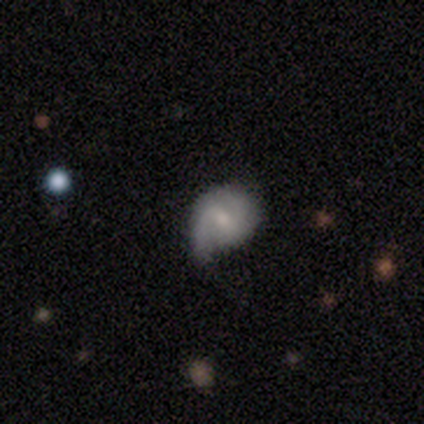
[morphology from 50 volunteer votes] Overall: featured or disk (64%; smooth 30%). Edge-on disk: no (91%). Bar: weak (69%). Spiral arms: yes (90%). Spiral arm count: 2 (58%; 1 35%). Spiral winding: tight (35%, tied with medium). Bulge size: moderate (52%; small 41%). Merging: none (57%; minor disturbance 28%).